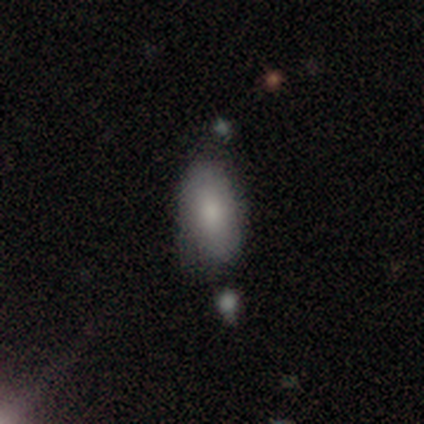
This appears to be a smooth galaxy with no disk features (85%) that is in between round and cigar-shaped (96%). Merging: none (58%).